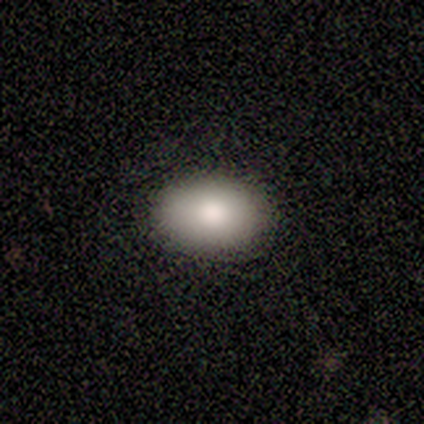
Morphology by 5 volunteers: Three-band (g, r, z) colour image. It shows a smooth galaxy with no disk features (80%) that is in between round and cigar-shaped (100%). Merging: none (80%).